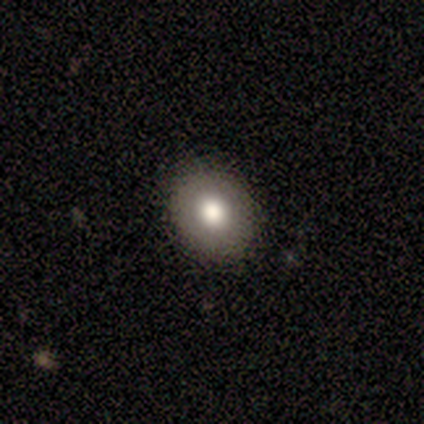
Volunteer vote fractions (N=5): Smooth or featured: smooth — 40% (tied with featured or disk — 40%)
How rounded: in between — 100%
Merging: none — 75% (minor disturbance — 25%)